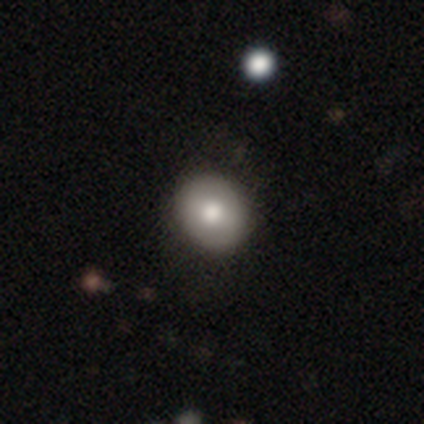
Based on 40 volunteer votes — Smooth or featured?
  - smooth: 85% *
  - featured or disk: 15%
  - star or artifact: 0%
How rounded?
  - round: 65% *
  - in between: 35%
  - cigar-shaped: 0%
Merging?
  - none: 68% *
  - minor disturbance: 5%
  - major disturbance: 0%
  - merger: 0%